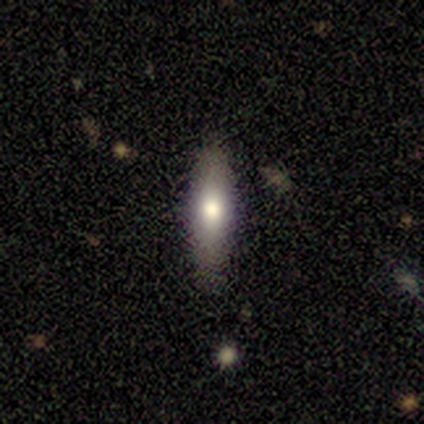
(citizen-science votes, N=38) A smooth galaxy with no disk features (66%) that is cigar-shaped (72%).

Vote fractions:
- Smooth or featured? smooth: 66% / featured or disk: 34% / star or artifact: 0%
- How rounded? cigar-shaped: 72% / in between: 28% / round: 0%
- Merging? none: 92% / minor disturbance: 8% / major disturbance: 0% / merger: 0%